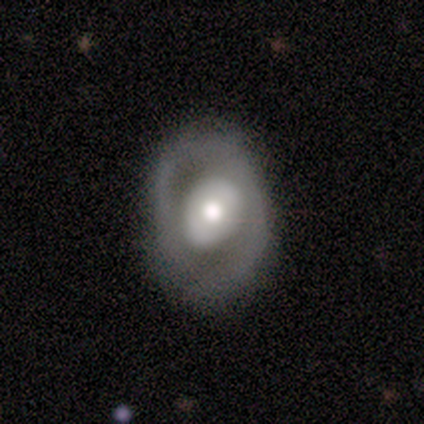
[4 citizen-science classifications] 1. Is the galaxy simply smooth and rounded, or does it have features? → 50% smooth (tied), 50% featured or disk (tied), 0% star or artifact.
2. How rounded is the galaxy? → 100% in between, 0% round, 0% cigar-shaped.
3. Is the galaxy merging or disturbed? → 50% none (tied), 50% minor disturbance (tied), 0% major disturbance, 0% merger.